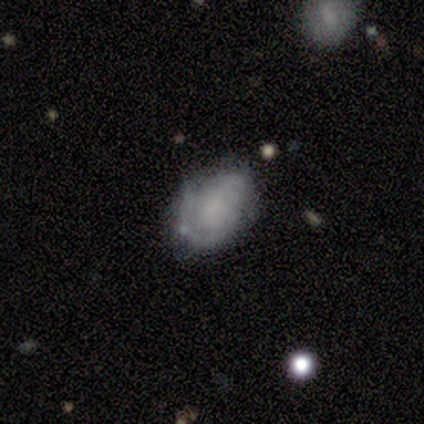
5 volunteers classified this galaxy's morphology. This is likely a featured or disk galaxy (60%). It is clearly not viewed edge-on (100%). Bar: likely weak (67%). Spiral arm pattern: likely no (67%). Central bulge: likely none (67%). Merging: clearly none (80%).